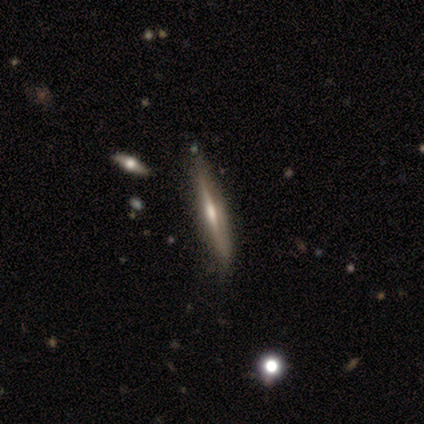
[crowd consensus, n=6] Morphology: type=featured or disk (100%); edge-on=yes (100%); edge-on bulge=rounded (83%); merging=none (83%).